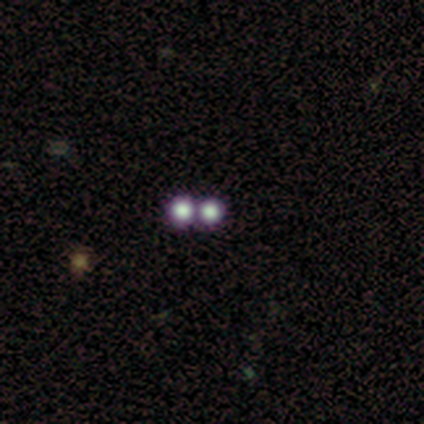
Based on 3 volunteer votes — A smooth galaxy with no disk features (100%) that is round (100%).

Vote fractions:
- Smooth or featured? smooth: 100% / featured or disk: 0% / star or artifact: 0%
- How rounded? round: 100% / in between: 0% / cigar-shaped: 0%
- Merging? none: 67% / merger: 33% / minor disturbance: 0% / major disturbance: 0%